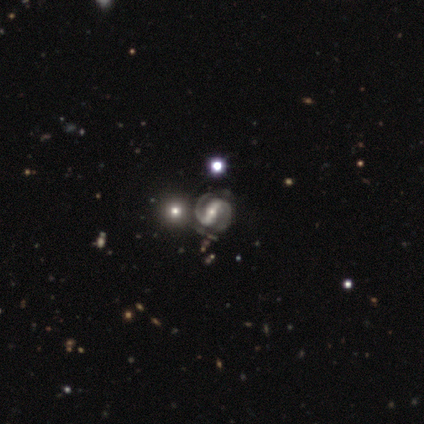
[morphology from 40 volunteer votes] Smooth or featured? featured or disk (90%)
Edge-on disk? no (100%)
Bar? strong (86%)
Spiral arms? yes (100%)
Spiral winding? medium (61%)
Spiral arm count? 2 (100%)
Bulge size? moderate (61%)
Merging? none (34%)